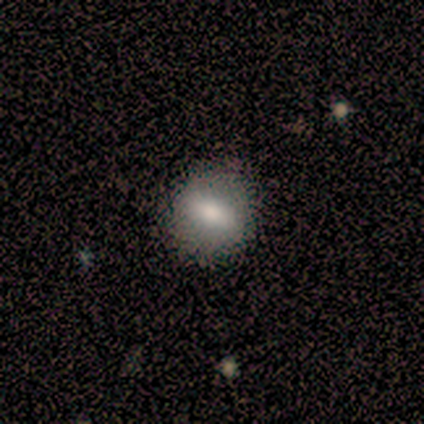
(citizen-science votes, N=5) smooth-or-featured: smooth: 100% | featured or disk: 0% | star or artifact: 0%
  how-rounded: in between: 60% | round: 40% | cigar-shaped: 0%
  merging: none: 100% | minor disturbance: 0% | major disturbance: 0% | merger: 0%